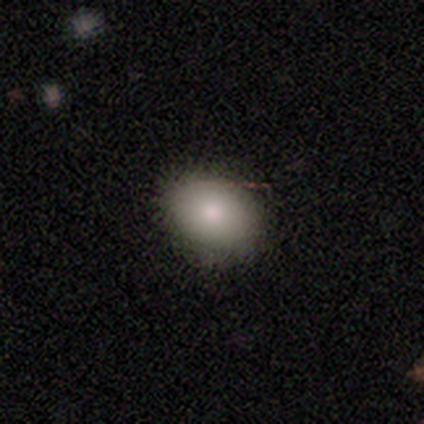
Q: Smooth or featured?
A: smooth (85%); runner-up: featured or disk (10%)
Q: How rounded?
A: in between (73%); runner-up: round (27%)
Q: Merging?
A: none (70%); runner-up: minor disturbance (3%)